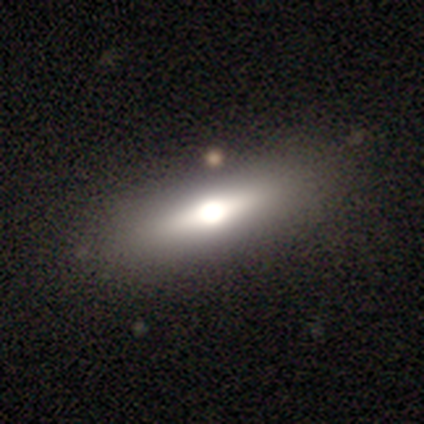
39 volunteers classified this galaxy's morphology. smooth-or-featured: featured or disk: 59% | smooth: 38% | star or artifact: 3%
  disk-edge-on: yes: 96% | no: 4%
    edge-on-bulge: rounded: 100% | boxy: 0% | none: 0%
  merging: none: 89% | minor disturbance: 5% | major disturbance: 3% | merger: 3%